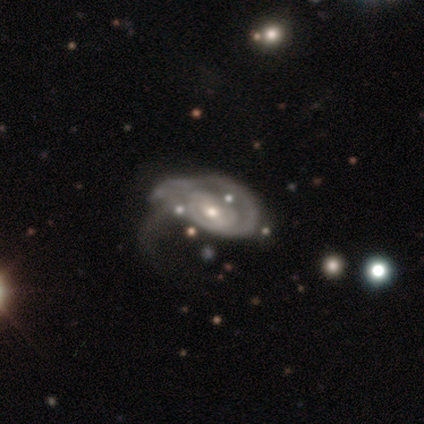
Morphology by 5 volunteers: Smooth or featured: featured or disk — 80% (smooth — 20%)
Edge-on disk: no — 100%
Bar: no — 75% (weak — 25%)
Spiral arms: yes — 75% (no — 25%)
Spiral winding: tight — 67% (loose — 33%)
Spiral arm count: 2 — 67% (can't tell — 33%)
Bulge size: moderate — 50% (tied with small — 50%)
Merging: major disturbance — 60% (minor disturbance — 40%)